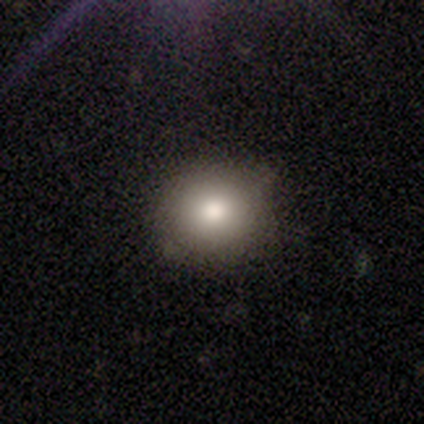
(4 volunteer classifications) A smooth galaxy with no disk features (50%, tied with star or artifact) that is round (50%, tied with in between).

Vote fractions:
- Smooth or featured? smooth: 50% (tied) / star or artifact: 50% (tied) / featured or disk: 0%
- How rounded? round: 50% (tied) / in between: 50% (tied) / cigar-shaped: 0%
- Merging? none: 100% / minor disturbance: 0% / major disturbance: 0% / merger: 0%